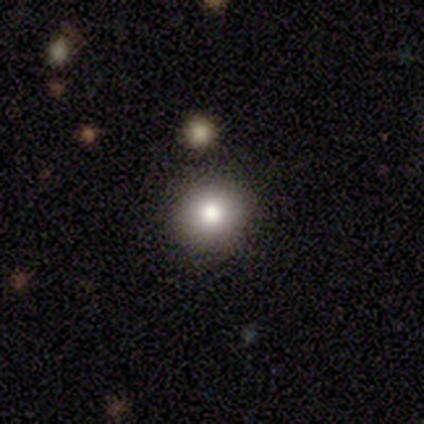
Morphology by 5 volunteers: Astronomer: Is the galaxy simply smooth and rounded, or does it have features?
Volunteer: smooth — 80%.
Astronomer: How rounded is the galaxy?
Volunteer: round — 50%, tied with in between at 50%.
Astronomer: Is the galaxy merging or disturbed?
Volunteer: none — 60%.